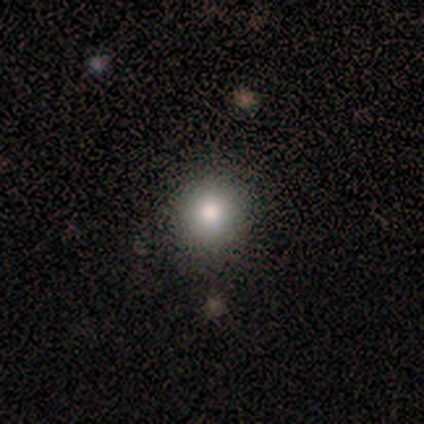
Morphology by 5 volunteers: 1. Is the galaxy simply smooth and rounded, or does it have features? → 60% star or artifact, 40% smooth, 0% featured or disk.